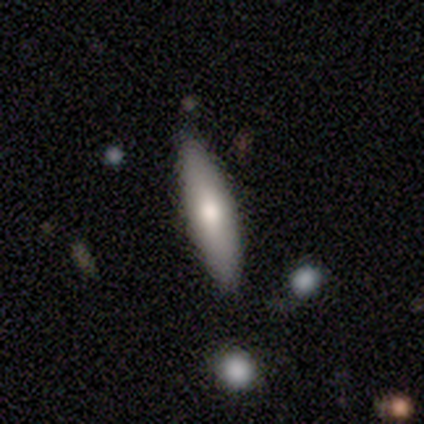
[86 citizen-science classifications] This is likely a smooth galaxy (71%). How rounded: likely cigar-shaped (66%). Merging: likely none (78%).